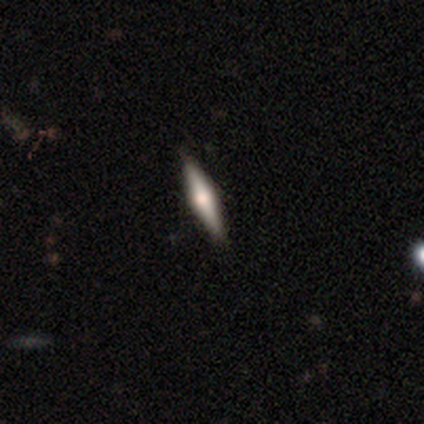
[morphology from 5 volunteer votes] A smooth galaxy with no disk features (60%) that is round (33%, tied with in between and cigar-shaped).

Vote fractions:
- Smooth or featured? smooth: 60% / featured or disk: 40% / star or artifact: 0%
- How rounded? round: 33% (tied) / in between: 33% (tied) / cigar-shaped: 33% (tied)
- Merging? none: 60% / merger: 40% / minor disturbance: 0% / major disturbance: 0%